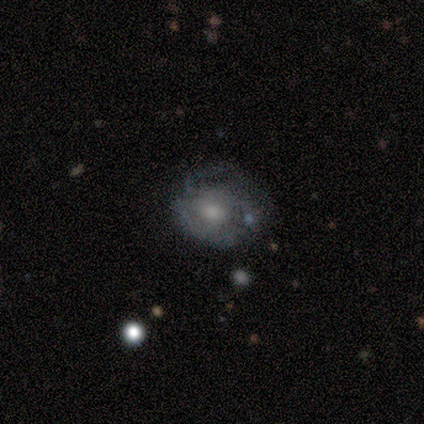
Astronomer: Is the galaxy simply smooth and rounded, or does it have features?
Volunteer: featured or disk — 100%.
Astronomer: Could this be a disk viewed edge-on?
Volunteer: no — 100%.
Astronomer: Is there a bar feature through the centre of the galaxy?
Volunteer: no — 60% (runner-up: weak, 40%).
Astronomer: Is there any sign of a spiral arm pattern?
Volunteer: yes — 60% (runner-up: no, 40%).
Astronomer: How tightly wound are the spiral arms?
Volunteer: tight — 67%.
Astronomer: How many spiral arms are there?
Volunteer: can't tell — 67%.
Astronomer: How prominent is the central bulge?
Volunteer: small — 60% (runner-up: moderate, 40%).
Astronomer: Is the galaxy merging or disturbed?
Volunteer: none — 60% (runner-up: minor disturbance, 40%).